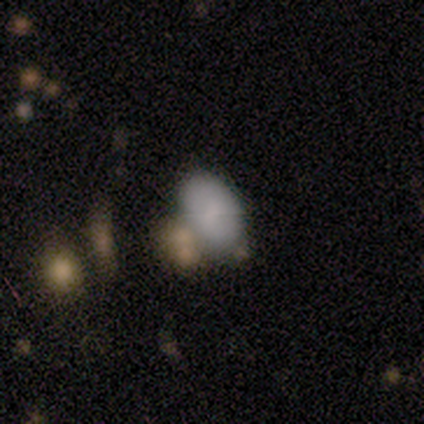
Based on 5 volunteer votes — Smooth or featured? 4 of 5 (80%) said smooth. How rounded? 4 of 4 (100%) said in between. Merging? 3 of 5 (60%) said none.